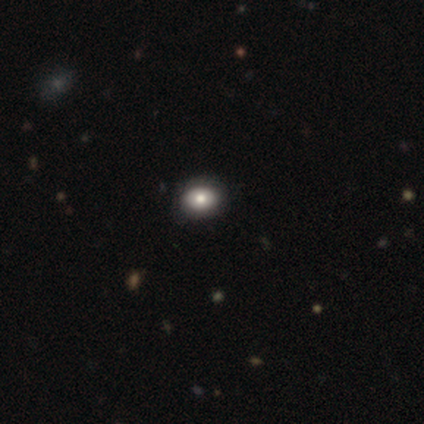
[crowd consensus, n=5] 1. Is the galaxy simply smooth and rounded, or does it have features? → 40% featured or disk (tied), 40% star or artifact (tied), 20% smooth.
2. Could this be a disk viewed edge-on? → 100% no, 0% yes.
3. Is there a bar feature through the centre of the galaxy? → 100% no, 0% strong, 0% weak.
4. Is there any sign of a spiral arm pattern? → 100% no, 0% yes.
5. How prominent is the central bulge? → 50% large (tied), 50% small (tied), 0% dominant, 0% moderate, 0% none.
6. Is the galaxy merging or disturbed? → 100% none, 0% minor disturbance, 0% major disturbance, 0% merger.